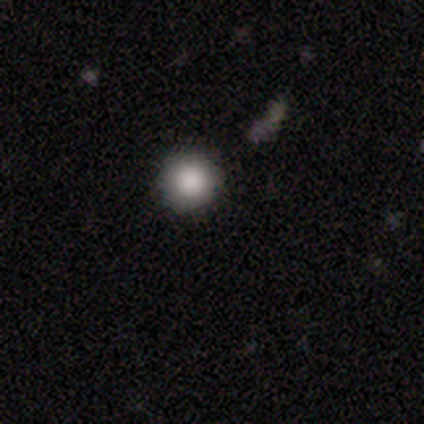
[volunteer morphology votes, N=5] A smooth galaxy with no disk features (100%) that is round (100%).

Vote fractions:
- Smooth or featured? smooth: 100% / featured or disk: 0% / star or artifact: 0%
- How rounded? round: 100% / in between: 0% / cigar-shaped: 0%
- Merging? none: 100% / minor disturbance: 0% / major disturbance: 0% / merger: 0%